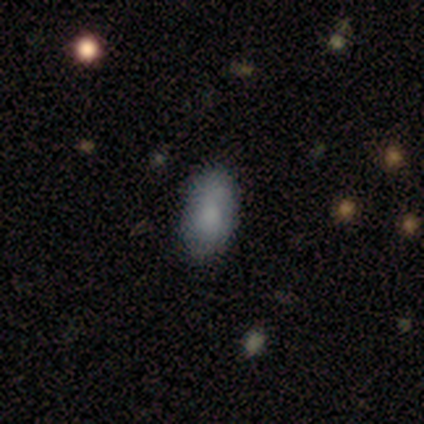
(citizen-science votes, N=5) smooth-or-featured: smooth: 60% | featured or disk: 20% | star or artifact: 20%
  how-rounded: in between: 100% | round: 0% | cigar-shaped: 0%
  merging: none: 75% | minor disturbance: 25% | major disturbance: 0% | merger: 0%